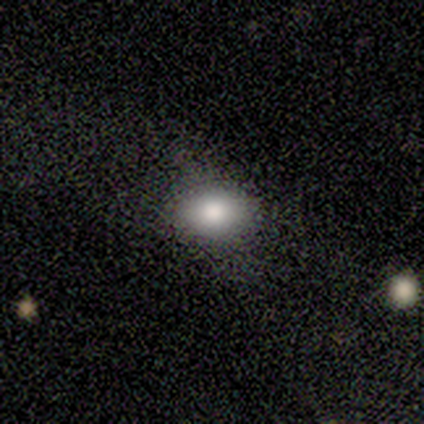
smooth_or_featured: smooth (p=0.50) [tied with: star or artifact p=0.50]
how_rounded: in between (p=1.00)
merging: none (p=1.00)